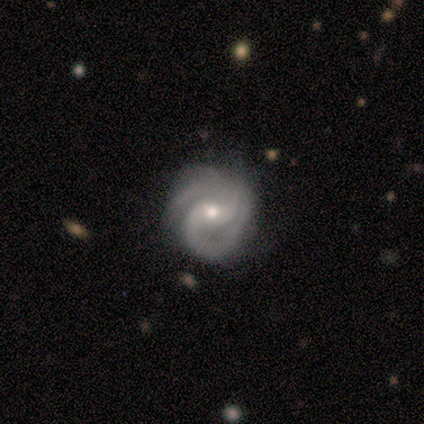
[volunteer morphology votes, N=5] smooth_or_featured: featured or disk (p=0.60) [alt: smooth p=0.20]
disk_edge_on: no (p=1.00)
bar: weak (p=0.67) [alt: no p=0.33]
has_spiral_arms: yes (p=1.00)
spiral_winding: medium (p=0.67) [alt: tight p=0.33]
spiral_arm_count: 2 (p=0.67) [alt: 3 p=0.33]
bulge_size: moderate (p=1.00)
merging: none (p=0.75) [alt: major disturbance p=0.25]